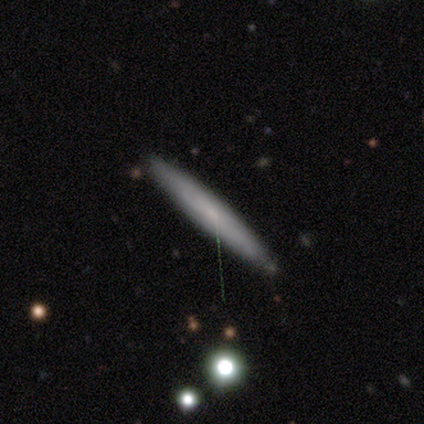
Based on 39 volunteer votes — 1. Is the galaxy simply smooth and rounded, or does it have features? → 64% smooth, 31% featured or disk, 5% star or artifact.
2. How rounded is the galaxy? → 92% cigar-shaped, 8% in between, 0% round.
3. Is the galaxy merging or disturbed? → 92% none, 3% minor disturbance, 3% major disturbance, 3% merger.